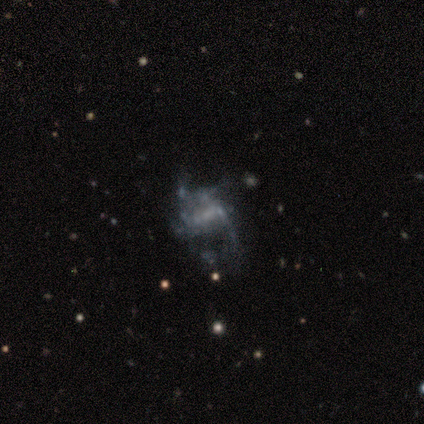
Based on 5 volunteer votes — Q: Smooth or featured?
A: featured or disk (80%); runner-up: smooth (20%)
Q: Edge-on disk?
A: no (100%)
Q: Bar?
A: no (50%); runner-up: strong (25%)
Q: Spiral arms?
A: no (75%); runner-up: yes (25%)
Q: Bulge size?
A: small (50%); tied with: none (50%)
Q: Merging?
A: major disturbance (60%); runner-up: none (20%)